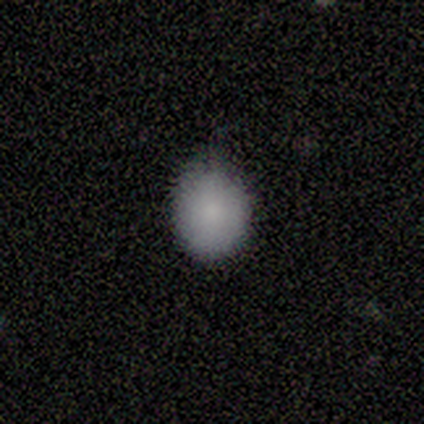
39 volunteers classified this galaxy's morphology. smooth-or-featured: smooth: 92% | featured or disk: 5% | star or artifact: 3%
  how-rounded: round: 56% | in between: 44% | cigar-shaped: 0%
  merging: none: 63% | minor disturbance: 32% | major disturbance: 5% | merger: 0%